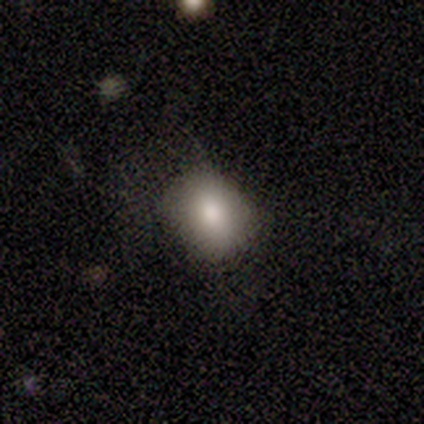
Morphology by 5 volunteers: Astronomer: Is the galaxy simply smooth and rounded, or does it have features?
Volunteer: smooth — 80%.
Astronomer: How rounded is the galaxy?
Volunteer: in between — 75%.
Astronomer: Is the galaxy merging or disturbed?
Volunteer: minor disturbance — 50%.